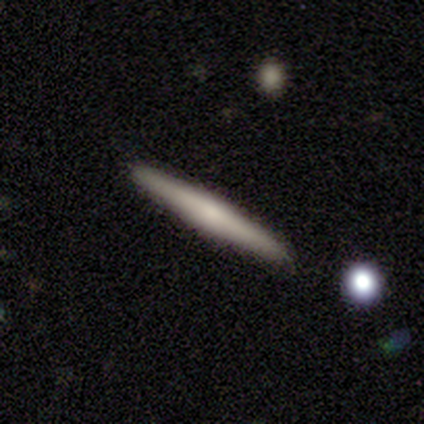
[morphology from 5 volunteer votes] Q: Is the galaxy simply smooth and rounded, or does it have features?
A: featured or disk — 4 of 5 (80%).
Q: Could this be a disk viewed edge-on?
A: yes — 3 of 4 (75%).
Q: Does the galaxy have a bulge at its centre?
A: rounded — 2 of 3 (67%).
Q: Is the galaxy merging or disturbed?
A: none — 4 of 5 (80%).